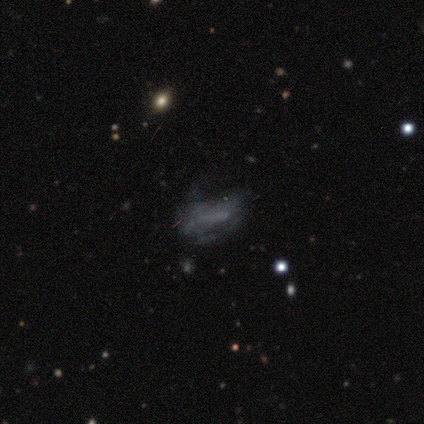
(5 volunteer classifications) smooth_or_featured: smooth (p=0.40) [tied with: featured or disk p=0.40]
how_rounded: in between (p=1.00)
merging: none (p=0.50) [tied with: major disturbance p=0.50]